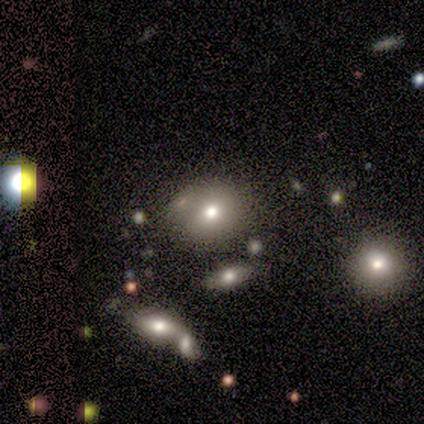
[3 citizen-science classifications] Smooth or featured: smooth — 67% (star or artifact — 33%)
How rounded: round — 100%
Merging: none — 100%